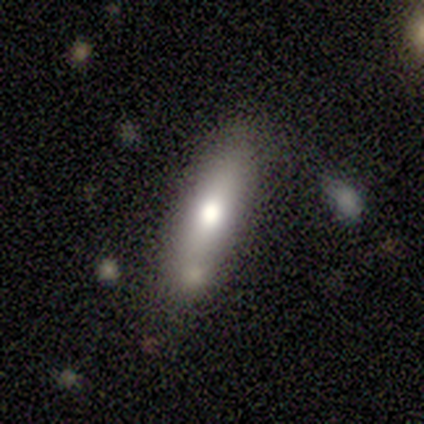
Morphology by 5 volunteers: Smooth or featured? 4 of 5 (80%) said featured or disk. Edge-on disk? 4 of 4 (100%) said yes. Edge-on bulge? 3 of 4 (75%) said rounded. Merging? 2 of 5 (40%, tied with minor disturbance) said none.